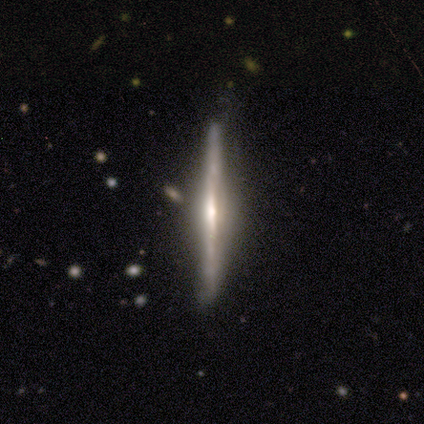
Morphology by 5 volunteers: featured or disk 60%, smooth 40%, star or artifact 0%. Down the decision tree: edge-on disk — yes (100%); edge-on bulge — none (67%); merging — none (60%).